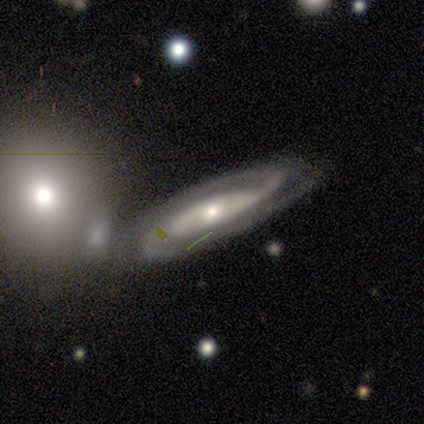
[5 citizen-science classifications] This appears to be a featured or disk galaxy (100%) with no bar (100%), 2 (33%, tied with 3 and can't tell) medium (67%) spiral arms (100%) and a moderate central bulge (67%). Merging: none (60%).